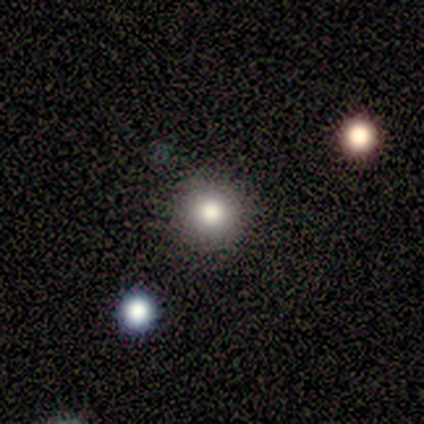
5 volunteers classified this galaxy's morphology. Q: Smooth or featured?
A: smooth (100%)
Q: How rounded?
A: round (100%)
Q: Merging?
A: none (100%)